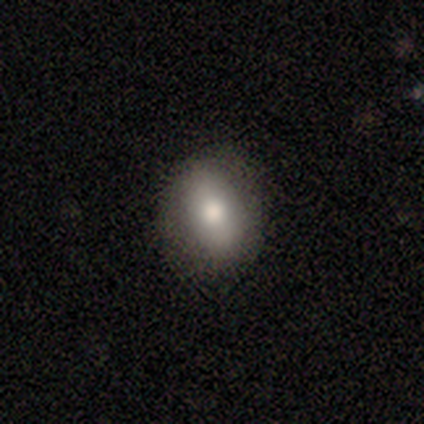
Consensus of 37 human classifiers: smooth-or-featured: smooth: 84% | featured or disk: 14% | star or artifact: 3%
  how-rounded: in between: 81% | round: 19% | cigar-shaped: 0%
  merging: none: 86% | minor disturbance: 11% | major disturbance: 3% | merger: 0%